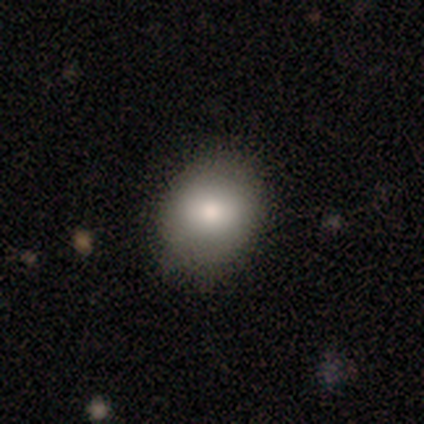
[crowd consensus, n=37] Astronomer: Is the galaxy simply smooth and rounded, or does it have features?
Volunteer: smooth — 84%.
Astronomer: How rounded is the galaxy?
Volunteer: round — 55% (runner-up: in between, 45%).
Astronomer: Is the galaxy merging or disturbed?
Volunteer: none — 94%.